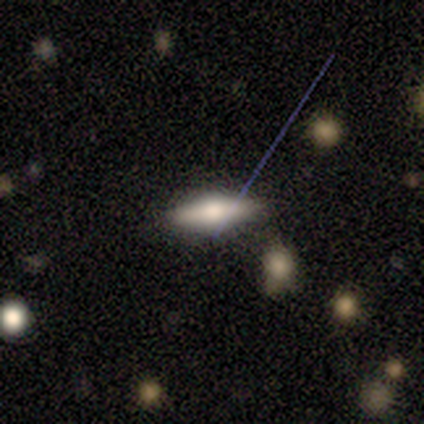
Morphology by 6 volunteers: Smooth or featured: featured or disk — 67% (smooth — 33%)
Edge-on disk: yes — 50% (tied with no — 50%)
Edge-on bulge: rounded — 100%
Merging: none — 67% (minor disturbance — 17%)